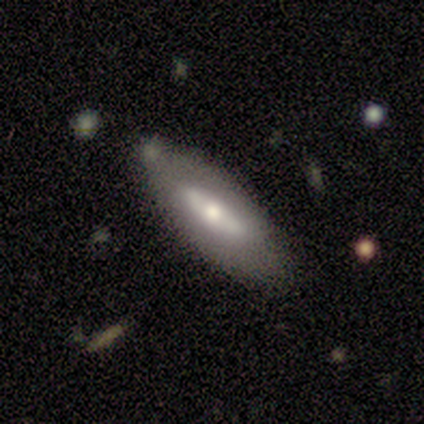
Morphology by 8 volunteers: Smooth or featured? featured or disk (75%)
Edge-on disk? no (67%)
Bar? no (75%)
Spiral arms? no (100%)
Bulge size? small (50%)
Merging? none (88%)